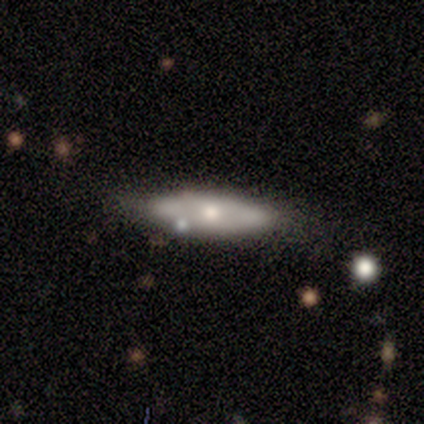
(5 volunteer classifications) Smooth or featured: smooth — 60% (featured or disk — 40%)
How rounded: cigar-shaped — 67% (in between — 33%)
Merging: none — 40% (tied with minor disturbance — 40%)